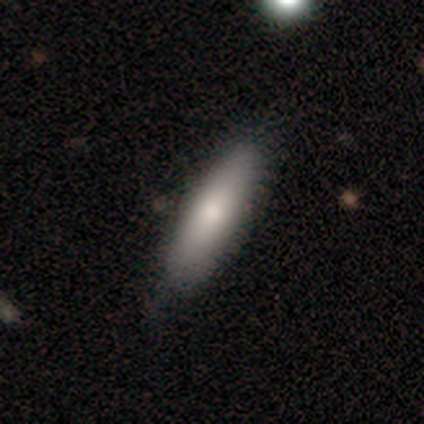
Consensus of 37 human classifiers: A smooth galaxy with no disk features (81%) that is cigar-shaped (60%). Merging: none (83%).